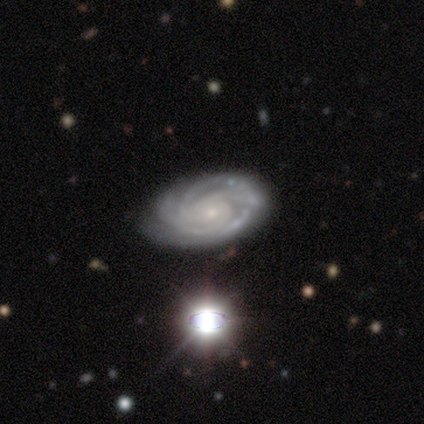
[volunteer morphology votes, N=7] A featured or disk galaxy (100%) with a weak bar (43%, tied with no), 2 (33%, tied with 4 and can't tell) tight (83%) spiral arms (86%) and a small central bulge (86%). Merging: none (86%).